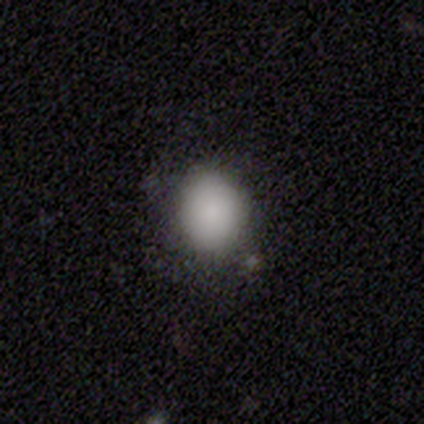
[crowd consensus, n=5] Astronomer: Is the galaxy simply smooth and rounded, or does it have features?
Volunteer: smooth — 100%.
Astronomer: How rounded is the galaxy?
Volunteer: round — 60% (runner-up: in between, 40%).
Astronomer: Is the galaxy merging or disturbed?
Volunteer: none — 60% (runner-up: minor disturbance, 40%).